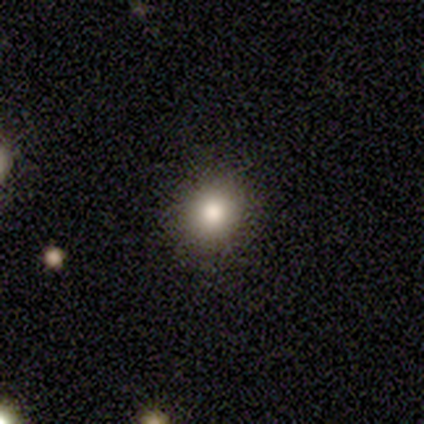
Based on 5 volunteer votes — This is clearly a smooth galaxy (100%). How rounded: clearly round (100%). Merging: clearly none (100%).